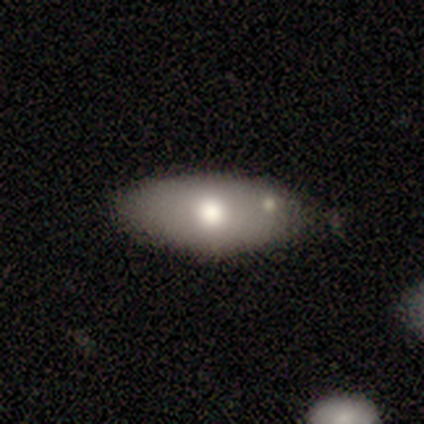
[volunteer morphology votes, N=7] smooth 86%, featured or disk 14%, star or artifact 0%. Down the decision tree: how rounded — in between (100%); merging — none (71%).